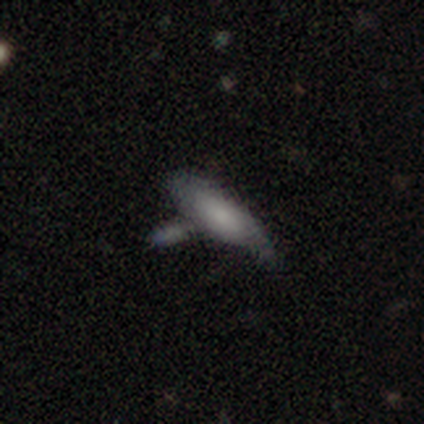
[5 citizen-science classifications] Volunteers were most divided on "smooth or featured": smooth: 60%, featured or disk: 40%, star or artifact: 0%. Remaining: how rounded — in between (100%); merging — merger (40%).